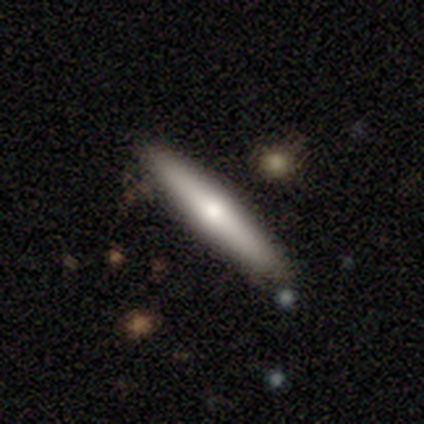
smooth-or-featured: featured or disk: 50% | smooth: 47% | star or artifact: 3%
  disk-edge-on: yes: 100% | no: 0%
    edge-on-bulge: rounded: 79% | none: 16% | boxy: 5%
  merging: none: 84% | minor disturbance: 14% | merger: 3% | major disturbance: 0%